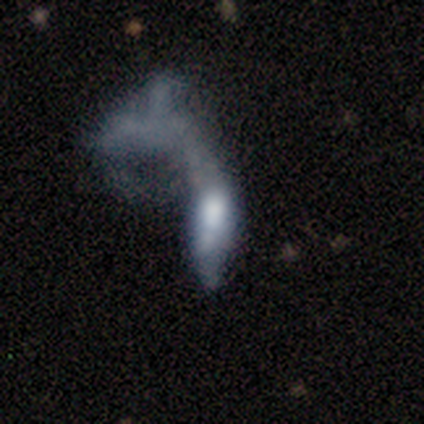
This is possibly a featured or disk galaxy (57%). It is likely not viewed edge-on (75%). Bar: clearly no (100%). Spiral arm pattern: clearly no (100%). Central bulge: likely moderate (67%). Merging: clearly major disturbance (83%).